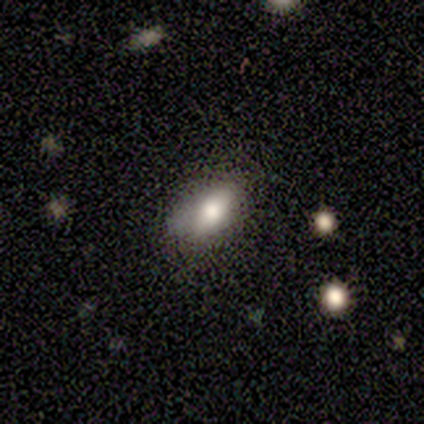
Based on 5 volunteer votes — A smooth galaxy with no disk features (100%) that is in between round and cigar-shaped (80%). Merging: minor disturbance (80%).